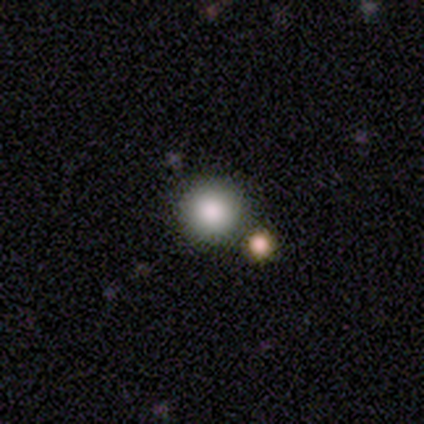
smooth_or_featured: smooth (p=1.00)
how_rounded: round (p=1.00)
merging: none (p=1.00)